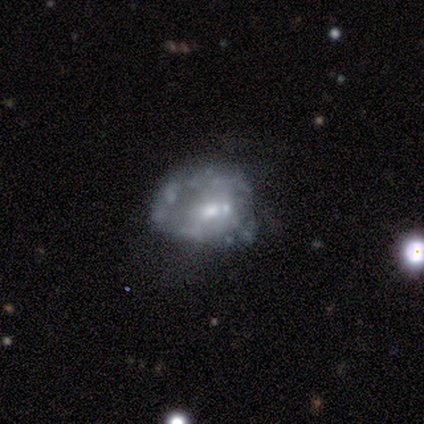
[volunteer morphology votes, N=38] Smooth or featured? featured or disk (87%)
Edge-on disk? no (100%)
Bar? no (82%)
Spiral arms? no (82%)
Bulge size? moderate (45%)
Merging? none (46%)